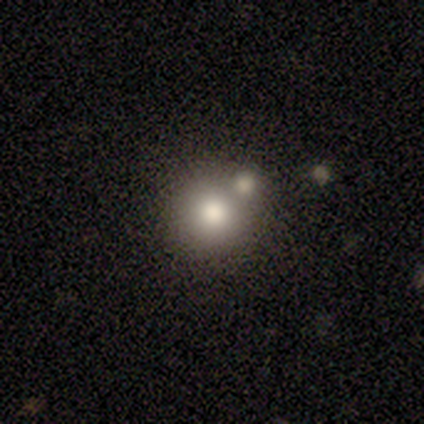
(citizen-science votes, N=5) smooth-or-featured: smooth: 80% | star or artifact: 20% | featured or disk: 0%
  how-rounded: round: 75% | in between: 25% | cigar-shaped: 0%
  merging: none: 50% | minor disturbance: 25% | merger: 25% | major disturbance: 0%